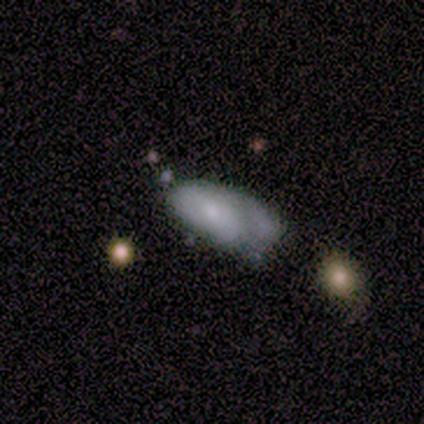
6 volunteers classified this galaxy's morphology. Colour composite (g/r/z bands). It shows a featured or disk galaxy (67%) with no bar (75%), no spiral arms (75%) and a small central bulge (50%). Merging: minor disturbance (50%).